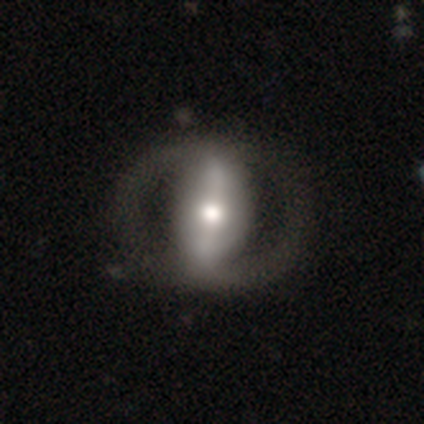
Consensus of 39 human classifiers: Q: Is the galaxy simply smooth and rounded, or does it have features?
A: featured or disk — 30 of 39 (77%).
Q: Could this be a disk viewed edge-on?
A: no — 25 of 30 (83%).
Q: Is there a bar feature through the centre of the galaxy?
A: strong — 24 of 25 (96%).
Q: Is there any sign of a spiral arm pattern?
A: yes — 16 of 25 (64%).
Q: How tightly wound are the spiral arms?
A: medium — 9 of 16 (56%).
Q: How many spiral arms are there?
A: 2 — 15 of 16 (94%).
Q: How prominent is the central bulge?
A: moderate — 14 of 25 (56%).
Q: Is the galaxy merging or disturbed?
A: none — 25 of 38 (66%).